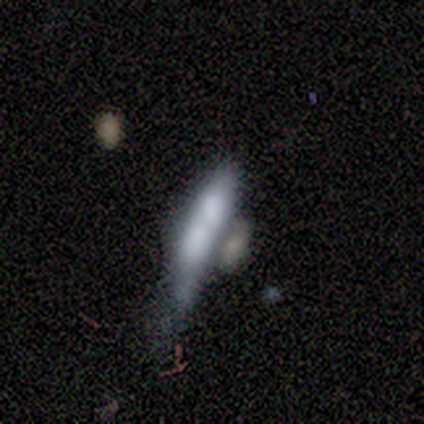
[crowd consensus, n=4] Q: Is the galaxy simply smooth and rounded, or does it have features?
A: smooth — 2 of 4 (50%, tied with featured or disk).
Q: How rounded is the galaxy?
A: in between — 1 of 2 (50%, tied with cigar-shaped).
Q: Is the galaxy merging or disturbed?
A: merger — 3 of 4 (75%).